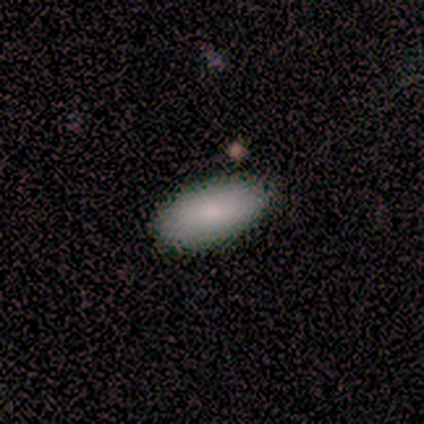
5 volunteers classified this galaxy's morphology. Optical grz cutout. It shows a smooth galaxy with no disk features (100%) that is in between round and cigar-shaped (80%). Merging: none (100%).